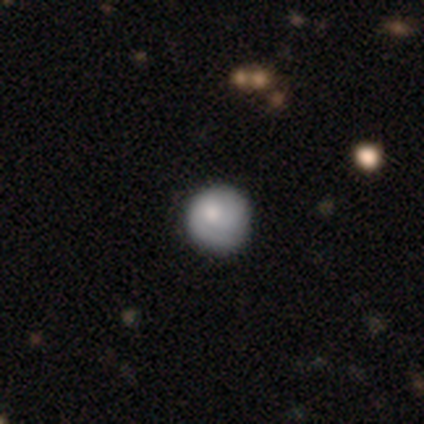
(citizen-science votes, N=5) This is clearly a smooth galaxy (80%). How rounded: clearly round (100%). Merging: clearly none (80%).